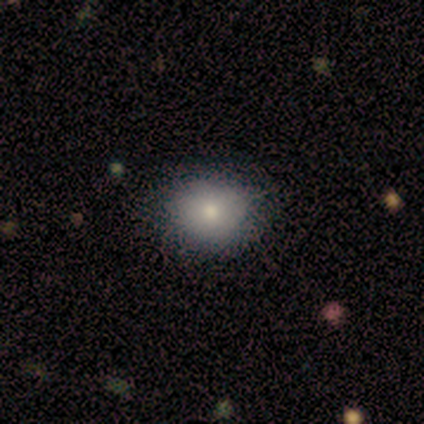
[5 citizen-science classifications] Smooth or featured?
  - smooth: 100% *
  - featured or disk: 0%
  - star or artifact: 0%
How rounded?
  - round: 60% *
  - in between: 40%
  - cigar-shaped: 0%
Merging?
  - none: 80% *
  - minor disturbance: 20%
  - major disturbance: 0%
  - merger: 0%